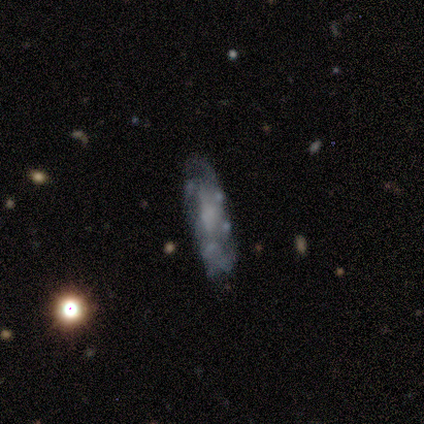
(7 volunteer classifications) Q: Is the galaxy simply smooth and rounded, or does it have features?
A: featured or disk — 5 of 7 (71%).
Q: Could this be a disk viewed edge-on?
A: no — 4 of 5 (80%).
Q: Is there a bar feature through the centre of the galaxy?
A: no — 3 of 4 (75%).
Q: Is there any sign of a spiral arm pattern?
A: no — 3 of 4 (75%).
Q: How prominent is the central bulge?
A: none — 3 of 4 (75%).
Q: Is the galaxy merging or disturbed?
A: none — 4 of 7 (57%).